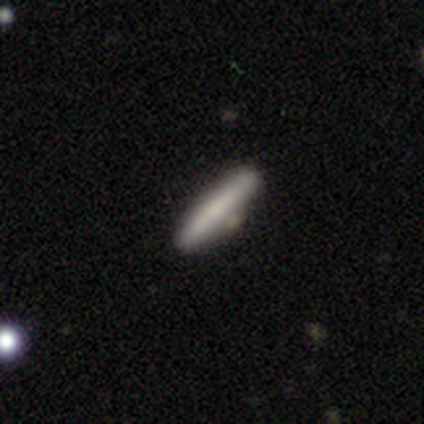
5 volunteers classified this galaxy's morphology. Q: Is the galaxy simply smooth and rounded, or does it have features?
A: smooth — 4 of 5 (80%).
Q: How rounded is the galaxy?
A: cigar-shaped — 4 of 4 (100%).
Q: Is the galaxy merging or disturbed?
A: none — 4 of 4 (100%).